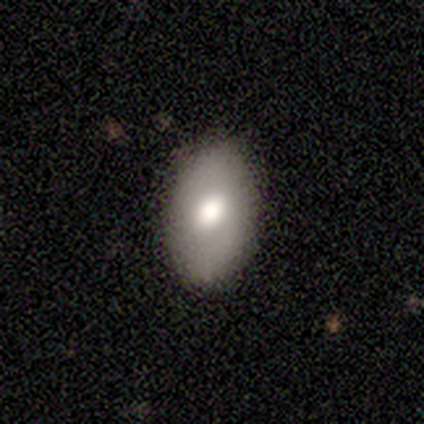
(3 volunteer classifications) Morphology: type=smooth (67%); roundness=round (50%, tied with in between); merging=none (100%).